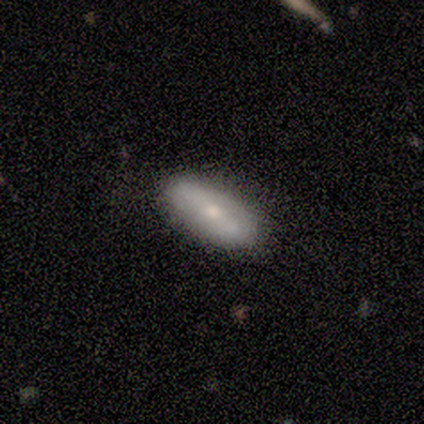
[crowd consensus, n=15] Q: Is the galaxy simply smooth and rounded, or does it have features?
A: smooth — 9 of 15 (60%).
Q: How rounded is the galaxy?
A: in between — 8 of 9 (89%).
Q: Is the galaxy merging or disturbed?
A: none — 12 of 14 (86%).